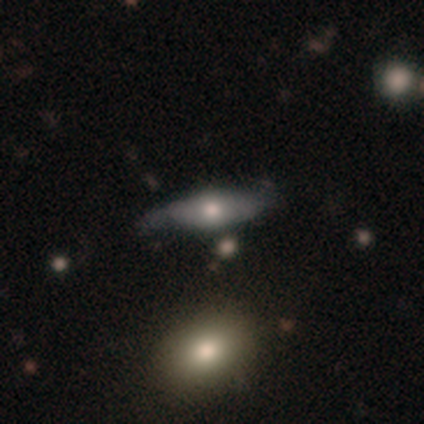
Smooth or featured: smooth — 47% (featured or disk — 46%)
How rounded: in between — 62% (cigar-shaped — 35%)
Merging: none — 47% (minor disturbance — 42%)